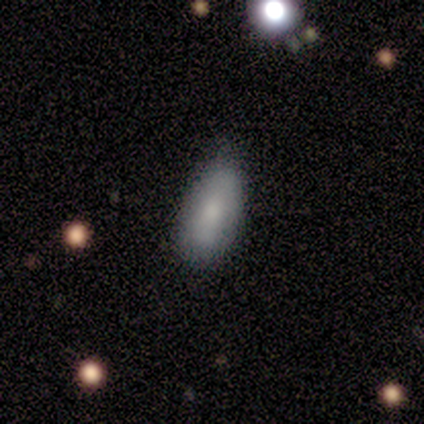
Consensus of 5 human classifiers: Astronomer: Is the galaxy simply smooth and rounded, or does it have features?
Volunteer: smooth — 60% (runner-up: featured or disk, 40%).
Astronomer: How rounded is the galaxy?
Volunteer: in between — 100%.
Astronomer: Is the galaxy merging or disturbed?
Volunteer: none — 80%.